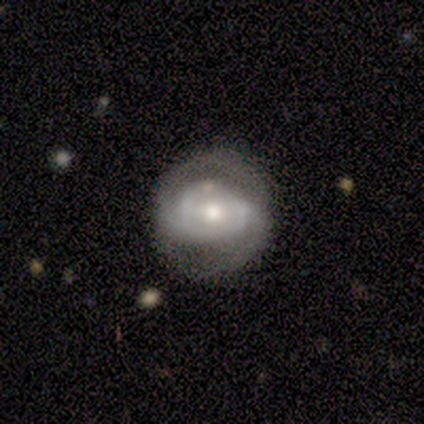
Smooth or featured: featured or disk — 100%
Edge-on disk: no — 100%
Bar: weak — 60% (strong — 20%)
Spiral arms: yes — 100%
Spiral winding: medium — 40% (tied with loose — 40%)
Spiral arm count: 2 — 100%
Bulge size: moderate — 80% (none — 20%)
Merging: minor disturbance — 60% (none — 40%)